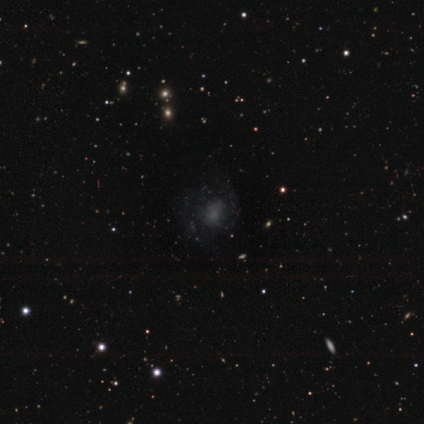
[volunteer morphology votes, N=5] Smooth or featured? featured or disk (60%)
Edge-on disk? no (100%)
Bar? no (67%)
Spiral arms? yes (100%)
Spiral winding? tight (33%, tied with medium and loose)
Spiral arm count? 1 (33%, tied with 2 and can't tell)
Bulge size? none (67%)
Merging? none (60%)